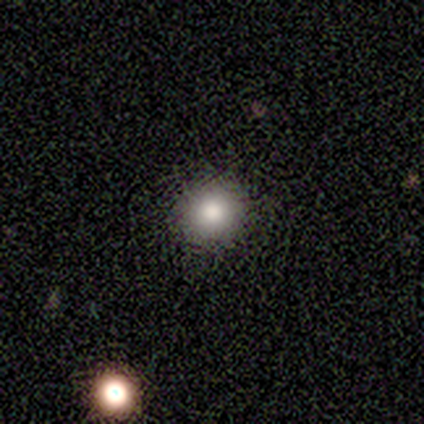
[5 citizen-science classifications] Smooth or featured? smooth (100%)
How rounded? round (80%)
Merging? none (100%)